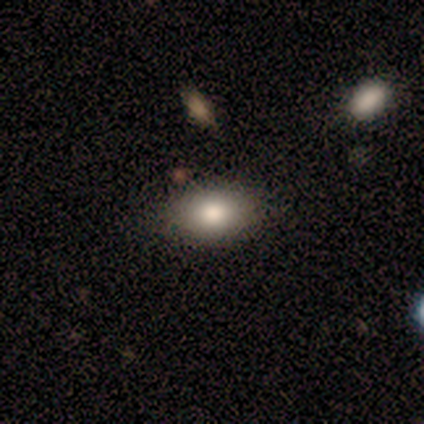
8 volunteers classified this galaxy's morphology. A smooth galaxy with no disk features (88%) that is in between round and cigar-shaped (71%).

Vote fractions:
- Smooth or featured? smooth: 88% / star or artifact: 12% / featured or disk: 0%
- How rounded? in between: 71% / round: 29% / cigar-shaped: 0%
- Merging? none: 71% / minor disturbance: 29% / major disturbance: 0% / merger: 0%